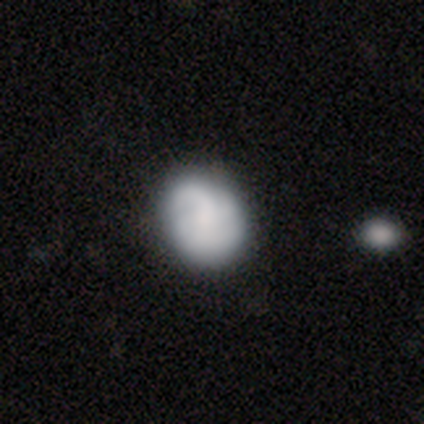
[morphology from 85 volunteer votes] Smooth or featured? 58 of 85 (68%) said smooth. How rounded? 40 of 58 (69%) said round. Merging? 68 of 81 (84%) said none.